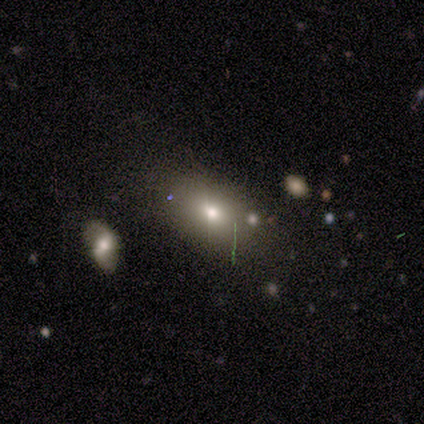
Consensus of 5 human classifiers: This is clearly a smooth galaxy (80%). How rounded: likely round (75%). Merging: clearly none (100%).